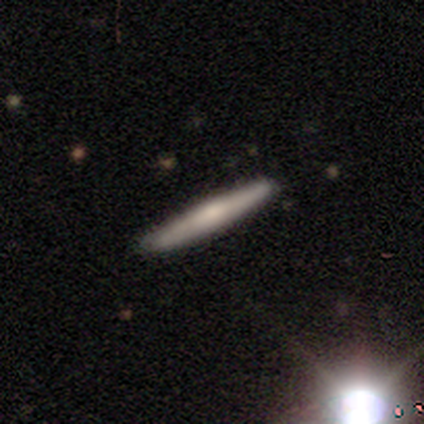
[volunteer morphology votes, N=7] This is likely a featured or disk galaxy (71%). It is likely viewed edge-on (60%). Edge-on bulge: likely rounded (67%). Merging: clearly none (83%).